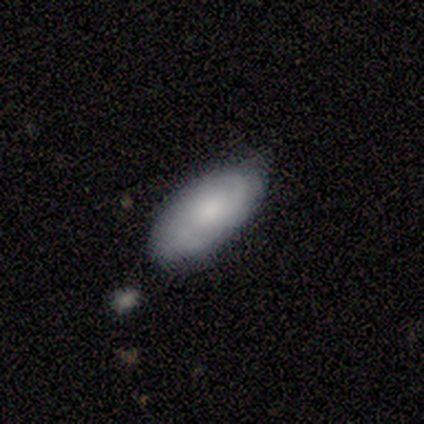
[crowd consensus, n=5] A featured or disk galaxy (80%) with no bar (100%), tight (50%, tied with medium) spiral arms (100%) and a moderate central bulge (50%). Merging: none (80%).